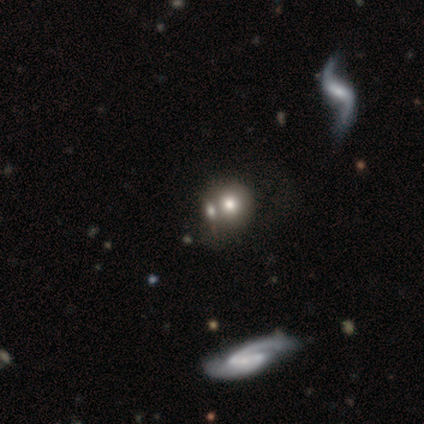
This is clearly a smooth galaxy (80%). How rounded: clearly round (100%). Merging: likely merger (75%).